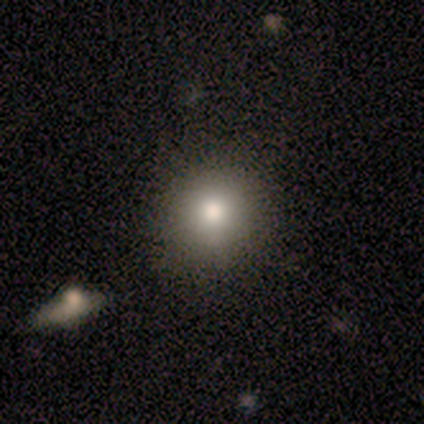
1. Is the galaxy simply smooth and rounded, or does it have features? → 40% smooth (tied), 40% featured or disk (tied), 20% star or artifact.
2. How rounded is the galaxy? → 100% round, 0% in between, 0% cigar-shaped.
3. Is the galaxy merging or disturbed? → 75% none, 25% minor disturbance, 0% major disturbance, 0% merger.